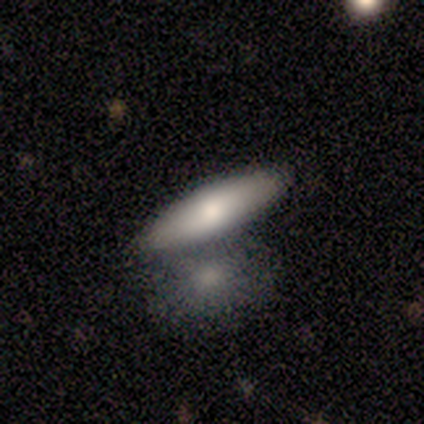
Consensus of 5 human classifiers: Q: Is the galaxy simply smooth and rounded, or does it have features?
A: smooth — 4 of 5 (80%).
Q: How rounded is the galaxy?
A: in between — 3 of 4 (75%).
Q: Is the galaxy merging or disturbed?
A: none — 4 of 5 (80%).